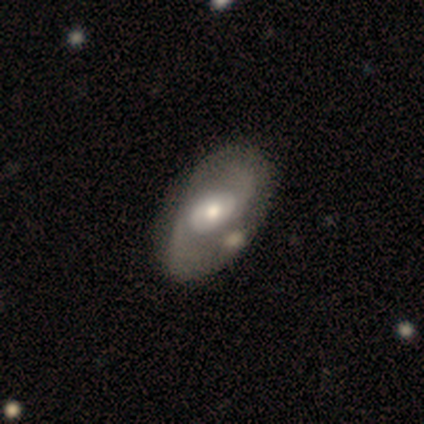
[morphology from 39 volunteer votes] Smooth or featured? 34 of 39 (87%) said featured or disk. Edge-on disk? 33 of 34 (97%) said no. Bar? 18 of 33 (55%) said no. Spiral arms? 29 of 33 (88%) said yes. Spiral winding? 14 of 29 (48%) said medium. Spiral arm count? 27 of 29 (93%) said 2. Bulge size? 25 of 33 (76%) said moderate. Merging? 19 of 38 (50%) said none.